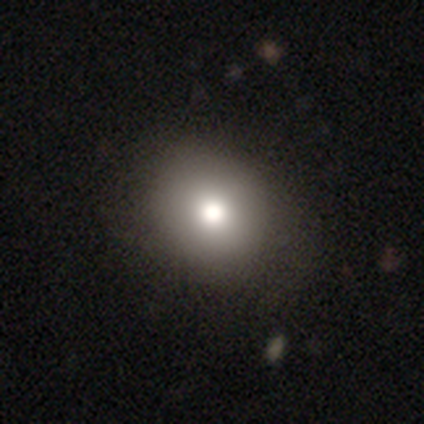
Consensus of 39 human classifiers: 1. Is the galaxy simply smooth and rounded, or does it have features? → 82% smooth, 10% star or artifact, 8% featured or disk.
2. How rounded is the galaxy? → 50% round (tied), 50% in between (tied), 0% cigar-shaped.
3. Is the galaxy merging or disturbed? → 60% none, 6% minor disturbance, 3% merger, 0% major disturbance.